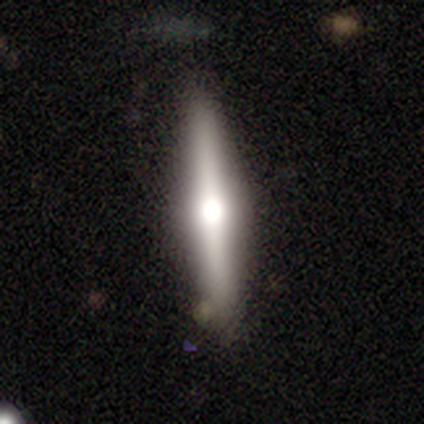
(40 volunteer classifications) smooth_or_featured: featured or disk (p=0.70) [alt: smooth p=0.28]
disk_edge_on: yes (p=0.93) [alt: no p=0.07]
edge_on_bulge: rounded (p=1.00)
merging: none (p=0.77) [alt: minor disturbance p=0.18]